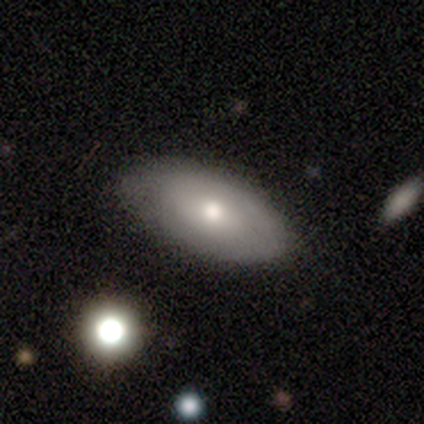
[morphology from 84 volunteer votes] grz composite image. It shows a smooth galaxy with no disk features (56%) that is in between round and cigar-shaped (94%). Merging: none (79%).